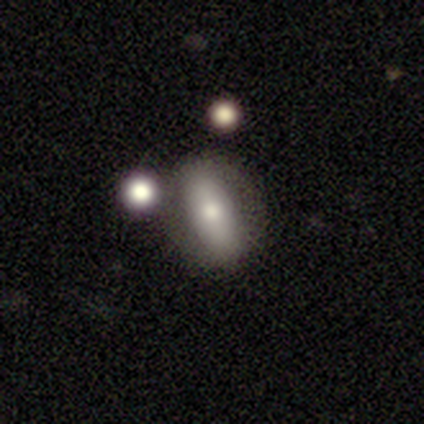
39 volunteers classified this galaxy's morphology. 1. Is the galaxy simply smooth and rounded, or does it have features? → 59% smooth, 33% featured or disk, 8% star or artifact.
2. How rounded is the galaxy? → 83% in between, 13% cigar-shaped, 4% round.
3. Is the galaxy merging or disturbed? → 67% none, 17% merger, 11% major disturbance, 6% minor disturbance.